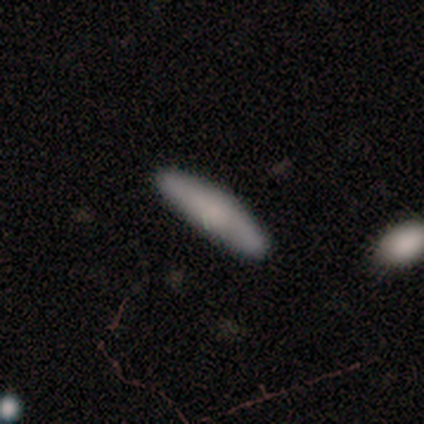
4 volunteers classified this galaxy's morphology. smooth-or-featured: smooth: 75% | featured or disk: 25% | star or artifact: 0%
  how-rounded: cigar-shaped: 100% | round: 0% | in between: 0%
  merging: none: 100% | minor disturbance: 0% | major disturbance: 0% | merger: 0%